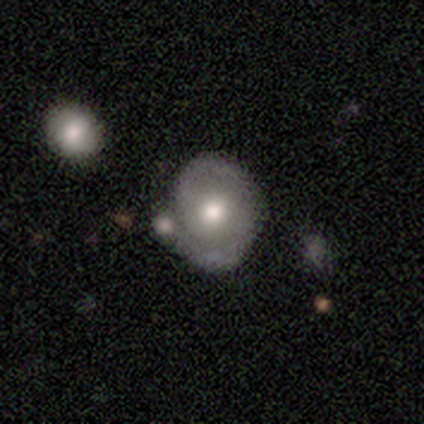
smooth-or-featured: featured or disk: 54% | smooth: 36% | star or artifact: 10%
  disk-edge-on: no: 100% | yes: 0%
    bar: no: 90% | weak: 10% | strong: 0%
    has-spiral-arms: yes: 76% | no: 24%
      spiral-winding: medium: 44% | loose: 31% | tight: 25%
      spiral-arm-count: 2: 88% | 1: 6% | can't tell: 6% | 3: 0% | 4: 0% | more than 4: 0%
    bulge-size: moderate: 67% | large: 19% | small: 14% | dominant: 0% | none: 0%
  merging: none: 54% | minor disturbance: 26% | merger: 17% | major disturbance: 3%